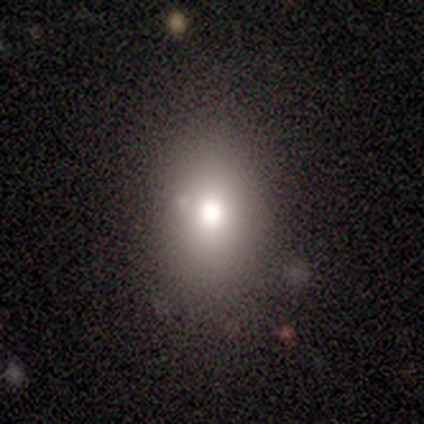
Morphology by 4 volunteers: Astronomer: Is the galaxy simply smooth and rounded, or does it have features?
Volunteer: smooth — 75%.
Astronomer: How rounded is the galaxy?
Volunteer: in between — 100%.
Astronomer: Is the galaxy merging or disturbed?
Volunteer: none — 75%.